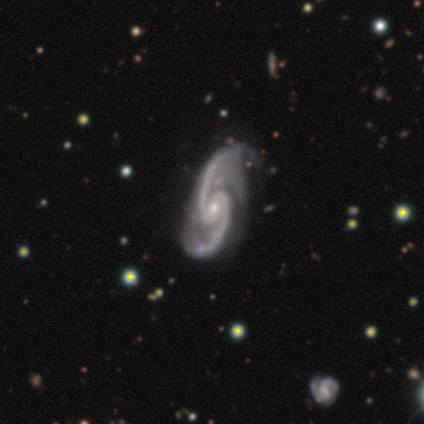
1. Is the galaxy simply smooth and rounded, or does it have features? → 100% featured or disk, 0% smooth, 0% star or artifact.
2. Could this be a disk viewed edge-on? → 100% no, 0% yes.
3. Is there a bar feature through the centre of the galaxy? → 80% no, 20% weak, 0% strong.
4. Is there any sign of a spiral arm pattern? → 100% yes, 0% no.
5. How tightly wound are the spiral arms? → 80% medium, 20% loose, 0% tight.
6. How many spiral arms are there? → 80% 2, 20% 3, 0% 1, 0% 4, 0% more than 4, 0% can't tell.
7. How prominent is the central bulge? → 60% small, 40% moderate, 0% dominant, 0% large, 0% none.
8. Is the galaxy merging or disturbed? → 60% minor disturbance, 40% none, 0% major disturbance, 0% merger.